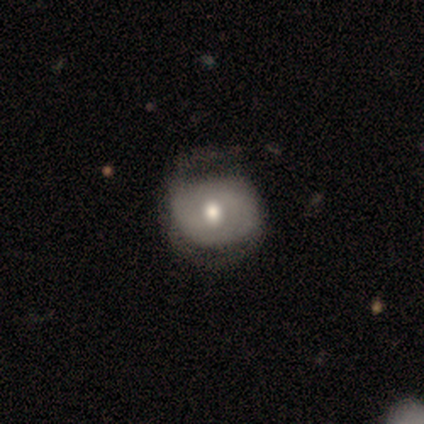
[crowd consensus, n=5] Smooth or featured: featured or disk — 80% (smooth — 20%)
Edge-on disk: no — 100%
Bar: no — 100%
Spiral arms: yes — 50% (tied with no — 50%)
Spiral winding: tight — 100%
Spiral arm count: 1 — 50% (tied with 2 — 50%)
Bulge size: moderate — 100%
Merging: none — 100%